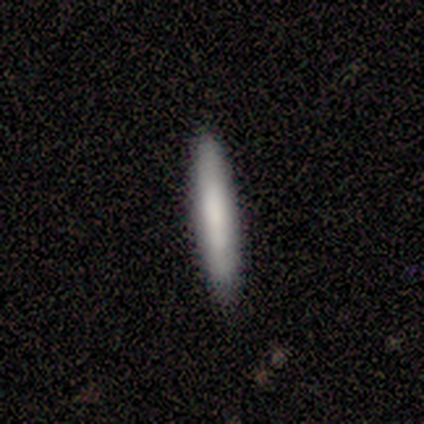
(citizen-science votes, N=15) smooth_or_featured: smooth (p=0.93) [alt: featured or disk p=0.07]
how_rounded: cigar-shaped (p=0.86) [alt: in between p=0.14]
merging: none (p=0.80) [alt: minor disturbance p=0.20]